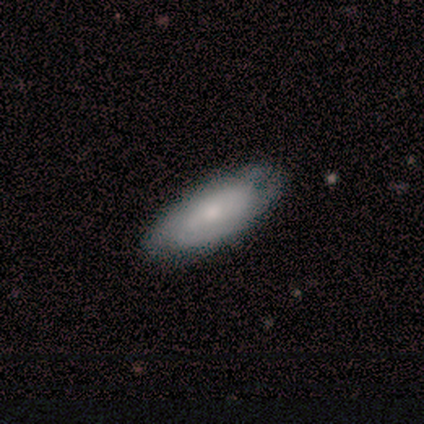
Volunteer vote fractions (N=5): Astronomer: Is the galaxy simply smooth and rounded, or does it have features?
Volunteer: featured or disk — 60% (runner-up: smooth, 40%).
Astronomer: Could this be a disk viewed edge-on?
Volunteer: no — 100%.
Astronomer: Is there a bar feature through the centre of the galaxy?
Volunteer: no — 67%.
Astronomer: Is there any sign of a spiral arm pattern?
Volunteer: yes — 67%.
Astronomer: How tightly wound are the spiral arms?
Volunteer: medium — 100%.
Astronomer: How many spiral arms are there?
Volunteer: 4 — 50%, tied with can't tell at 50%.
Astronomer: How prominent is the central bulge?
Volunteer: large — 33%, tied with moderate and none at 33%.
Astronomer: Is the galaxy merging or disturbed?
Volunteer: none — 80%.